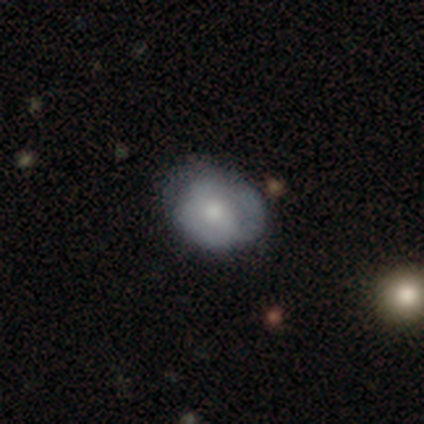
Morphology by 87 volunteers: Smooth or featured: smooth — 56% (featured or disk — 37%)
How rounded: round — 51% (in between — 49%)
Merging: none — 63% (minor disturbance — 31%)